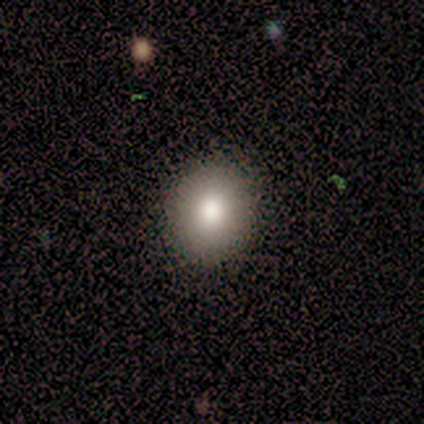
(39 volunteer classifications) Volunteers were most divided on "how rounded": round: 66%, in between: 31%, cigar-shaped: 3%. More confident: merging — none (88%); smooth or featured — smooth (82%).